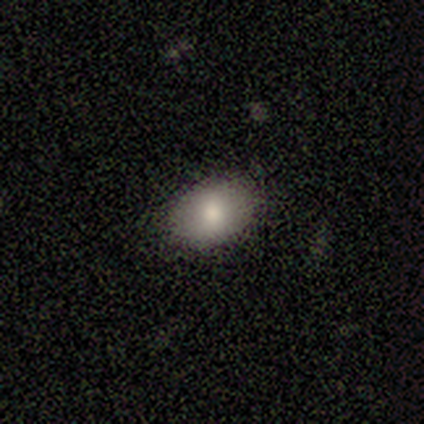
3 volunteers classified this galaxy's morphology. smooth-or-featured: smooth: 100% | featured or disk: 0% | star or artifact: 0%
  how-rounded: in between: 67% | round: 33% | cigar-shaped: 0%
  merging: none: 67% | minor disturbance: 33% | major disturbance: 0% | merger: 0%